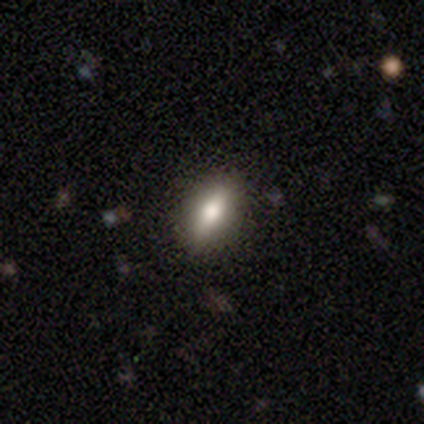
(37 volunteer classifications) smooth_or_featured: smooth (p=0.65) [alt: featured or disk p=0.22]
how_rounded: in between (p=0.79) [alt: cigar-shaped p=0.17]
merging: none (p=0.84) [alt: minor disturbance p=0.12]